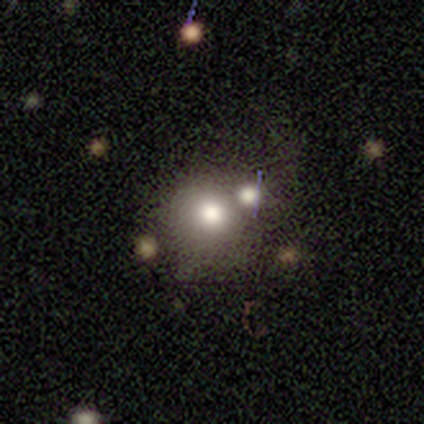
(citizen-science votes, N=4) Volunteers were most divided on "merging": minor disturbance: 50%, none: 25%, merger: 25%, major disturbance: 0%. More confident: how rounded — round (100%); smooth or featured — smooth (75%).